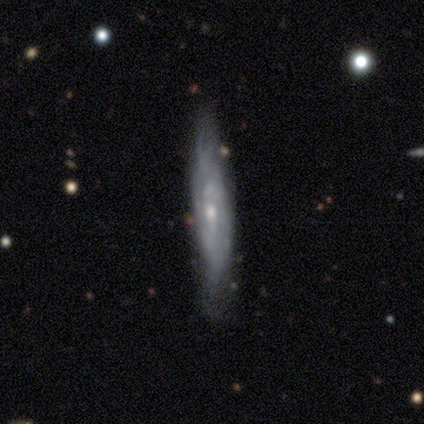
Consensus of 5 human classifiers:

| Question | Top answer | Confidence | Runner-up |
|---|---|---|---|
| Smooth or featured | featured or disk | 80% | smooth (20%) |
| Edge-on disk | no | 75% | yes (25%) |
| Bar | no | 67% | weak (33%) |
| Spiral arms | yes | 67% | no (33%) |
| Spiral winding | tight | 50% | tied: loose (50%) |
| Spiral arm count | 3 | 50% | tied: can't tell (50%) |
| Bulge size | small | 100% | — |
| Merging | minor disturbance | 60% | none (40%) |